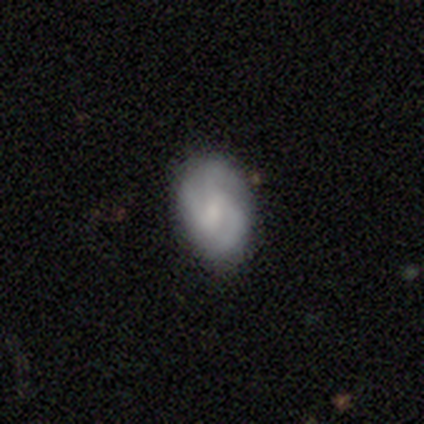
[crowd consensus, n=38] This is likely a featured or disk galaxy (63%). It is clearly not viewed edge-on (92%). Bar: likely weak (64%). Spiral arm pattern: clearly yes (91%). Spiral arm count: likely 3 (70%). Spiral winding: possibly medium (50%). Central bulge: marginally moderate (36%, tied with small). Merging: clearly none (83%).